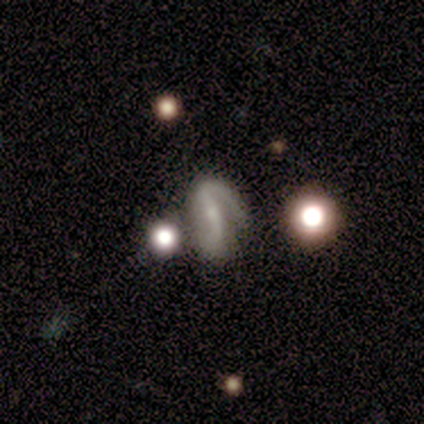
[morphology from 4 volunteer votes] Smooth or featured: featured or disk — 75% (smooth — 25%)
Edge-on disk: no — 100%
Bar: strong — 67% (weak — 33%)
Spiral arms: yes — 67% (no — 33%)
Spiral winding: tight — 100%
Spiral arm count: 2 — 100%
Bulge size: moderate — 33% (tied with small — 33%; none — 33%)
Merging: none — 50% (tied with major disturbance — 50%)